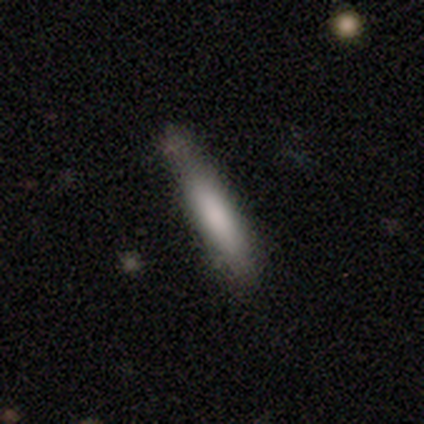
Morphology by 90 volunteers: This appears to be a smooth galaxy with no disk features (78%) that is cigar-shaped (94%). Merging: none (71%).